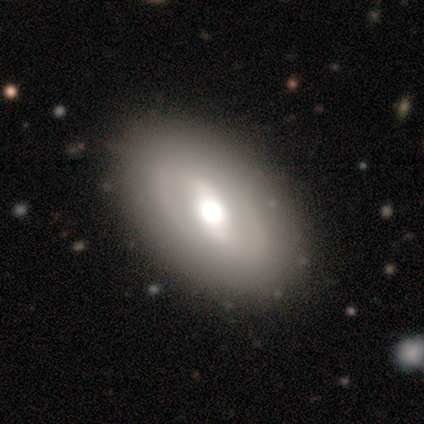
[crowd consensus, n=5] This appears to be a featured or disk galaxy (100%) with a strong bar (80%), no spiral arms (80%) and a large central bulge (80%). Merging: none (100%).